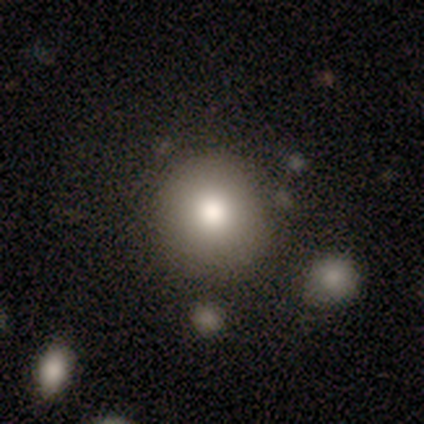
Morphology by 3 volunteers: A smooth galaxy with no disk features (100%) that is round (100%). Merging: none (100%).